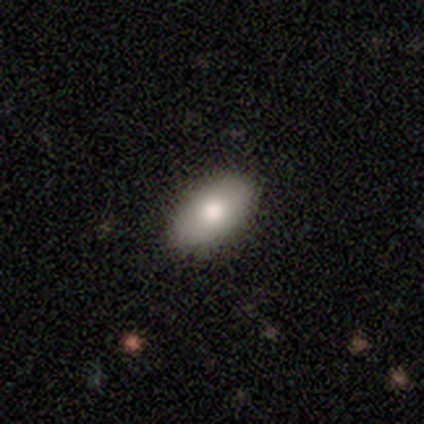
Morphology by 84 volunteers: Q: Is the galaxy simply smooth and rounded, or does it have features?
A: smooth — 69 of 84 (82%).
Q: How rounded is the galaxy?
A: in between — 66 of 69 (96%).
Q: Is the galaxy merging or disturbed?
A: none — 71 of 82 (87%).